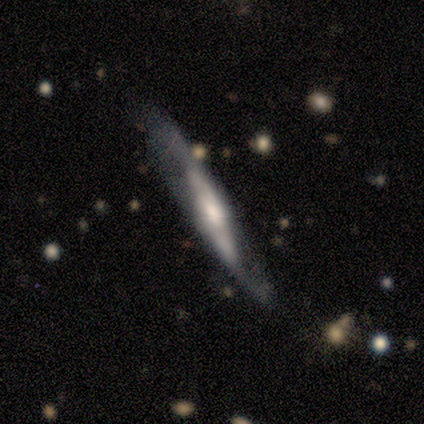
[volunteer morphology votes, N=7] This is clearly a featured or disk galaxy (100%). It is possibly viewed edge-on (57%). Edge-on bulge: possibly boxy (50%). Merging: possibly none (57%).